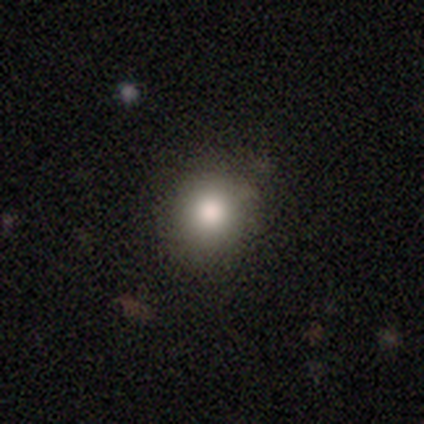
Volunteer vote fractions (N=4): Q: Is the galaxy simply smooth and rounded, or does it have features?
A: smooth — 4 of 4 (100%).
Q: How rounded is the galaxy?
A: round — 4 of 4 (100%).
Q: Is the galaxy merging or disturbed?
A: none — 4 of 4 (100%).